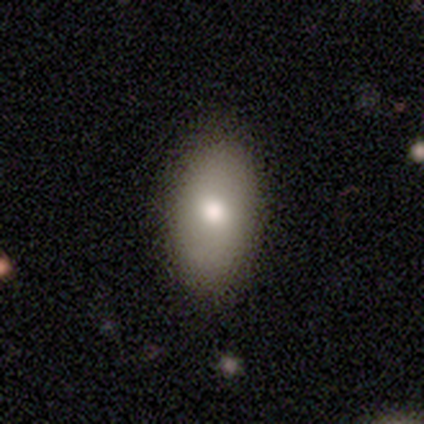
Overall: smooth (100%). How rounded: in between (100%). Merging: none (91%).